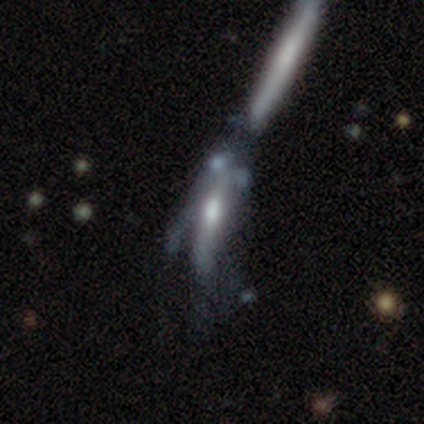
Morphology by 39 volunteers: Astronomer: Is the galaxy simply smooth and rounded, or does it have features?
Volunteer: featured or disk — 67%.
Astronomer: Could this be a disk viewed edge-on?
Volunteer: no — 65%.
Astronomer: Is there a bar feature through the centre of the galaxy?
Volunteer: no — 88%.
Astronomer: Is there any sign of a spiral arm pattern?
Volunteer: no — 82%.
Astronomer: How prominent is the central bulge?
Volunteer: moderate — 82%.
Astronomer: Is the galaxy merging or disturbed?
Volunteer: merger — 49%.